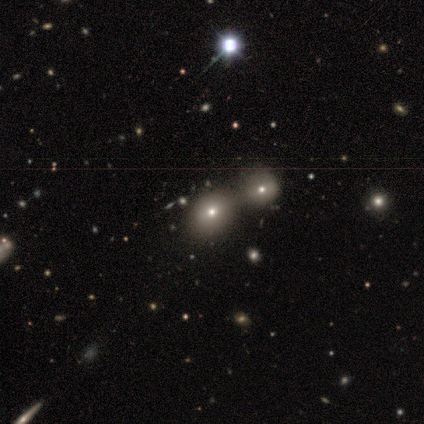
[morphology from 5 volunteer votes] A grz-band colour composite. It shows a smooth galaxy with no disk features (40%, tied with featured or disk) that is round (50%, tied with in between). Merging: none (75%).